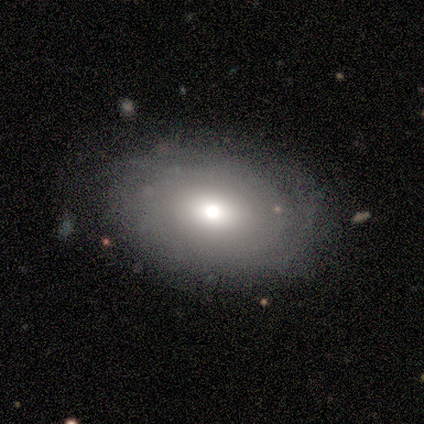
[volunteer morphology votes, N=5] type=featured or disk (80%); edge-on=no (100%); bar=no (50%); spiral arms=yes (50%, tied with no); winding=tight (100%); arm count=4 (50%, tied with can't tell); bulge=moderate (100%); merging=none (100%).